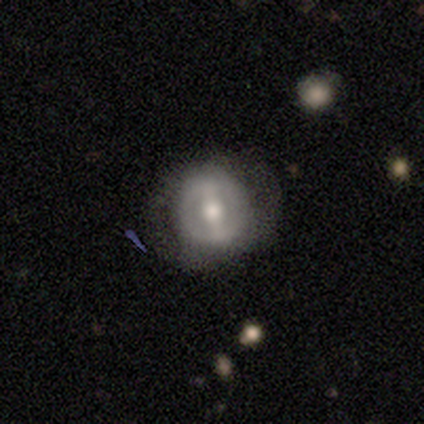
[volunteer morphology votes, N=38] This is likely a featured or disk galaxy (71%). It is clearly not viewed edge-on (100%). Bar: possibly strong (52%). Spiral arm pattern: likely no (63%). Central bulge: possibly moderate (59%). Merging: likely none (71%).